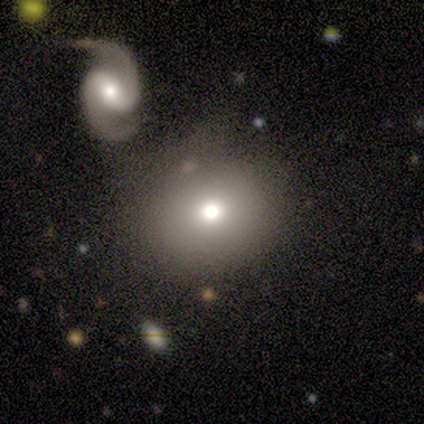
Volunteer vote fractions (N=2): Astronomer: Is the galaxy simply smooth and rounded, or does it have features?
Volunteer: smooth — 100%.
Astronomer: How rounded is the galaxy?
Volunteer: round — 100%.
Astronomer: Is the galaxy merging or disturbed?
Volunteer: none — 50%, tied with merger at 50%.